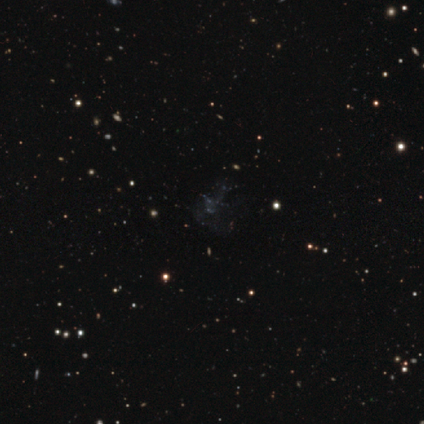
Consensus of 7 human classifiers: Volunteers were most divided on "smooth or featured": featured or disk: 57%, star or artifact: 43%, smooth: 0%. More confident: edge-on disk — no (100%); bar — no (100%); spiral arms — no (100%); bulge size — none (100%); merging — none (100%).